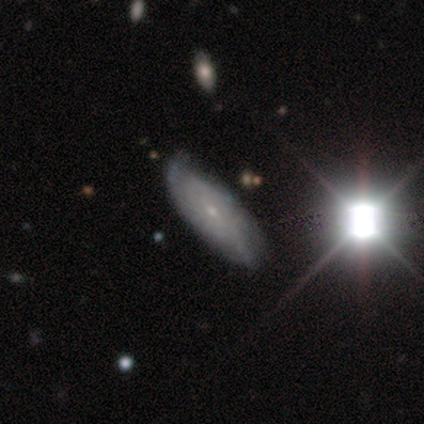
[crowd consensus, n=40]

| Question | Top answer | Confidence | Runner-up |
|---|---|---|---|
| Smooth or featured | featured or disk | 50% | smooth (28%) |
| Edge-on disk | no | 85% | yes (15%) |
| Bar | no | 65% | weak (29%) |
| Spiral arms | yes | 82% | no (18%) |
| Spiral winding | tight | 64% | loose (21%) |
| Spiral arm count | can't tell | 57% | 2 (29%) |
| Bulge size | small | 76% | moderate (18%) |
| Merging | none | 74% | minor disturbance (19%) |